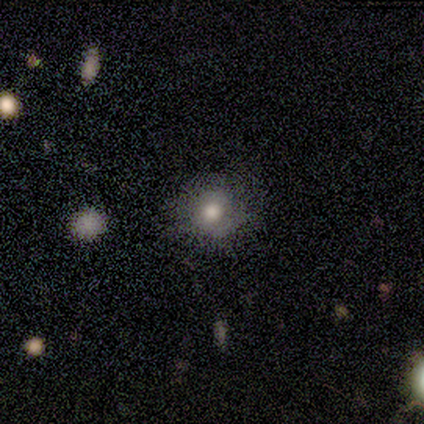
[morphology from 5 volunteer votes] A smooth galaxy with no disk features (80%) that is round (100%). Merging: none (80%).